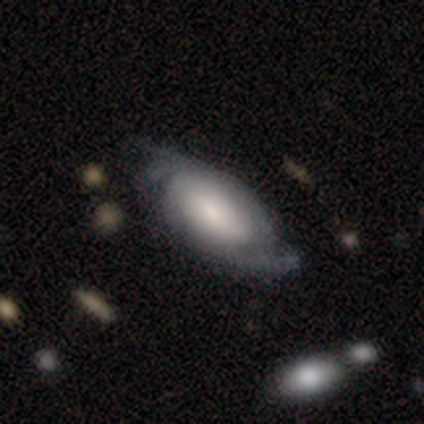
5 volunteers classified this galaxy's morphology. A featured or disk galaxy (60%) with no bar (67%), medium (67%) spiral arms (100%) and a large central bulge (67%).

Vote fractions:
- Smooth or featured? featured or disk: 60% / smooth: 40% / star or artifact: 0%
- Edge-on disk? no: 100% / yes: 0%
- Bar? no: 67% / strong: 33% / weak: 0%
- Spiral arms? yes: 100% / no: 0%
- Spiral winding? medium: 67% / tight: 33% / loose: 0%
- Spiral arm count? can't tell: 67% / 2: 33% / 1: 0% / 3: 0% / 4: 0% / more than 4: 0%
- Bulge size? large: 67% / dominant: 33% / moderate: 0% / small: 0% / none: 0%
- Merging? none: 80% / minor disturbance: 20% / major disturbance: 0% / merger: 0%